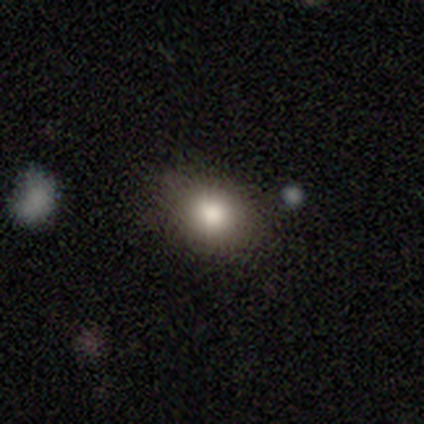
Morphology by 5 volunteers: smooth 100%, featured or disk 0%, star or artifact 0%. Down the decision tree: how rounded — in between (60%); merging — none (100%).